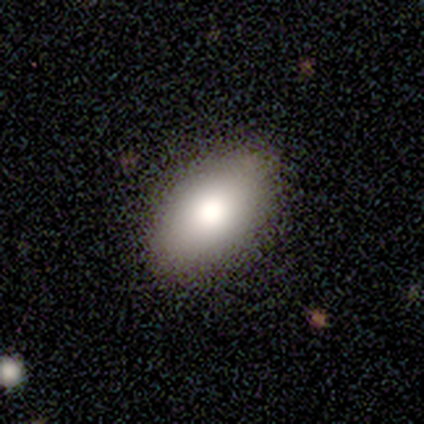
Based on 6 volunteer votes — Overall: smooth (67%). How rounded: in between (75%). Merging: none (100%).